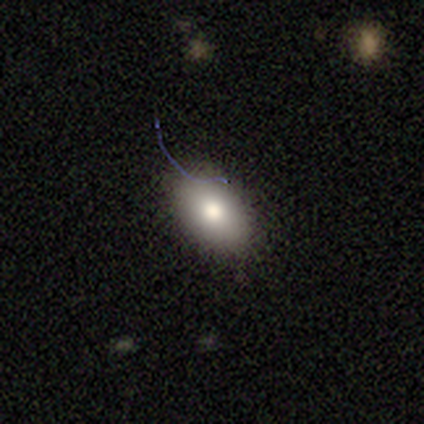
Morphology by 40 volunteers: A smooth galaxy with no disk features (80%) that is in between round and cigar-shaped (91%). Merging: none (72%).